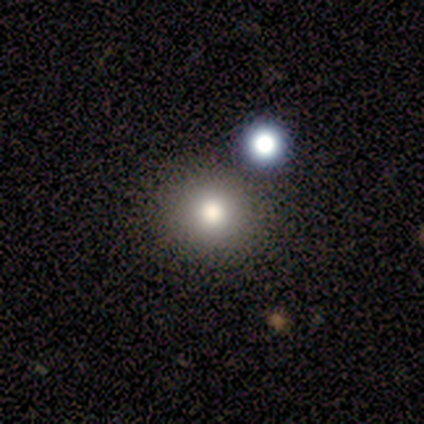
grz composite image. It shows a smooth galaxy with no disk features (60%) that is round (67%). Merging: none (100%).